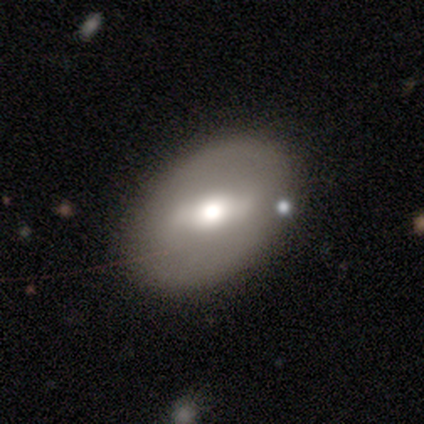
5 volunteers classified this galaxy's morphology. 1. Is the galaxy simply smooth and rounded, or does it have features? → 60% smooth, 40% featured or disk, 0% star or artifact.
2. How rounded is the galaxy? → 67% in between, 33% round, 0% cigar-shaped.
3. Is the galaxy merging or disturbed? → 80% none, 20% major disturbance, 0% minor disturbance, 0% merger.